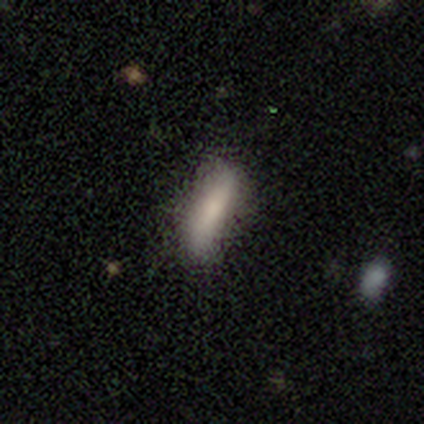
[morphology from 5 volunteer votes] smooth_or_featured: smooth (p=0.80) [alt: star or artifact p=0.20]
how_rounded: cigar-shaped (p=1.00)
merging: none (p=0.75) [alt: minor disturbance p=0.25]